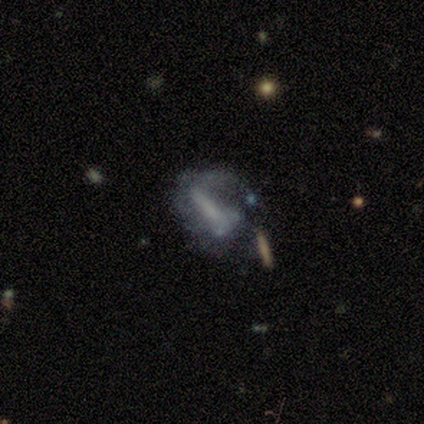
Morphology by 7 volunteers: Q: Smooth or featured?
A: featured or disk (57%); runner-up: smooth (29%)
Q: Edge-on disk?
A: no (75%); runner-up: yes (25%)
Q: Bar?
A: strong (33%); tied with: weak (33%); no (33%)
Q: Spiral arms?
A: no (67%); runner-up: yes (33%)
Q: Bulge size?
A: none (100%)
Q: Merging?
A: major disturbance (50%); runner-up: none (17%)